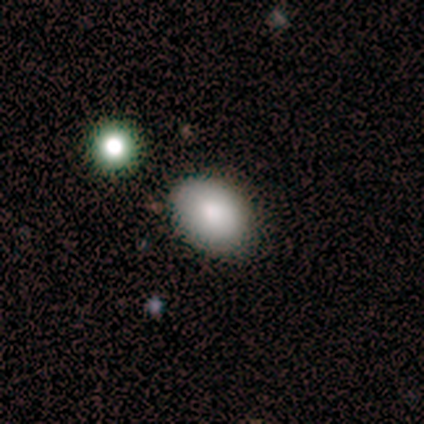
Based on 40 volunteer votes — A smooth galaxy with no disk features (88%) that is in between round and cigar-shaped (89%). Merging: none (89%).